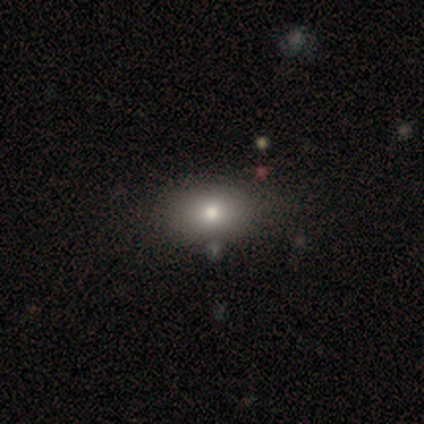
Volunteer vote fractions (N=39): smooth-or-featured: smooth: 67% | featured or disk: 21% | star or artifact: 13%
  how-rounded: in between: 81% | round: 19% | cigar-shaped: 0%
  merging: none: 71% | minor disturbance: 9% | merger: 6% | major disturbance: 3%